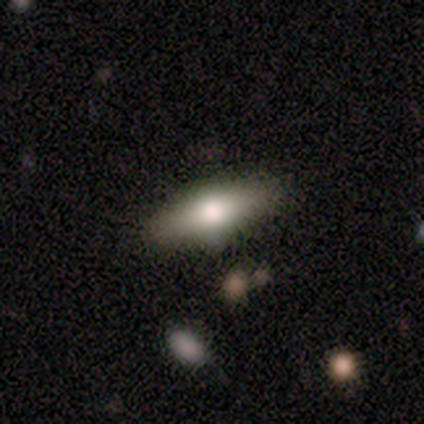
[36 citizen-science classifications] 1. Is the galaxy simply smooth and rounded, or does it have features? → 56% smooth, 31% featured or disk, 14% star or artifact.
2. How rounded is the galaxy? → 65% in between, 35% cigar-shaped, 0% round.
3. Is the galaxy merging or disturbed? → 84% none, 13% minor disturbance, 3% major disturbance, 0% merger.